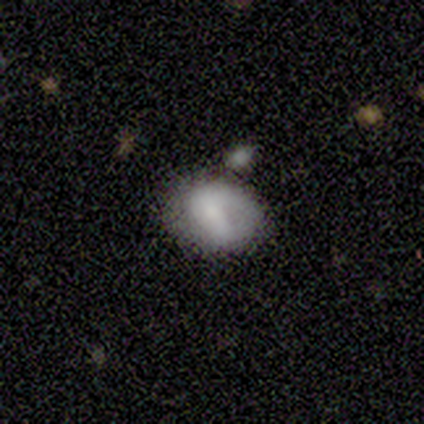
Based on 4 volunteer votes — Smooth or featured: star or artifact — 50% (smooth — 25%)